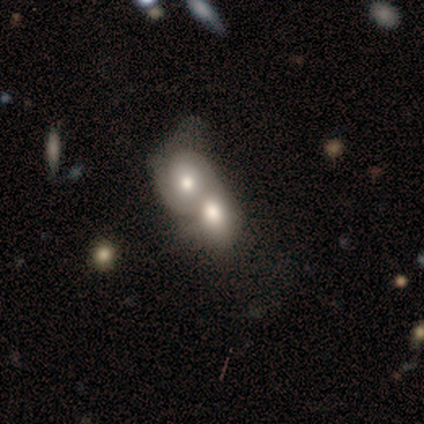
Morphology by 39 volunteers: This appears to be a featured or disk galaxy (46%) with no bar (78%), no spiral arms (78%) and a moderate central bulge (72%). Merging: merger (89%).